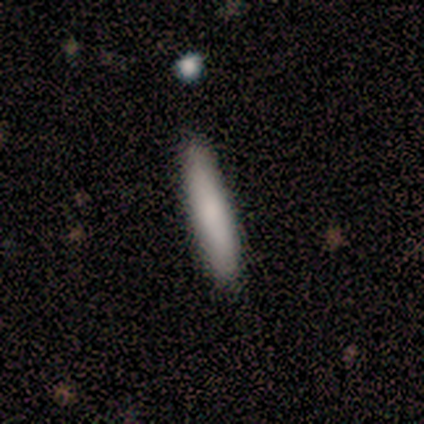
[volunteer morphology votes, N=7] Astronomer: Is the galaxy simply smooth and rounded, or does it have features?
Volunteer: smooth — 86%.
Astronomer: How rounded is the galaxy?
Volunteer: cigar-shaped — 100%.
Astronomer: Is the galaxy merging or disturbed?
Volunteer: none — 86%.